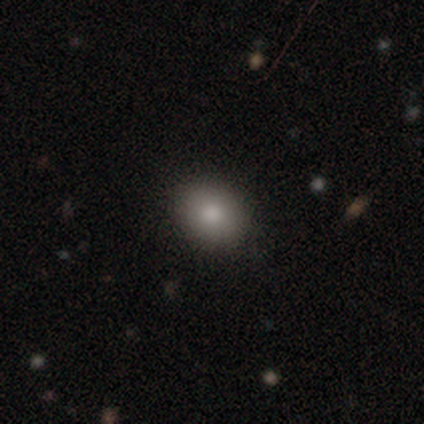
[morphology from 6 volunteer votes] smooth_or_featured: smooth (p=0.83) [alt: featured or disk p=0.17]
how_rounded: in between (p=0.60) [alt: round p=0.40]
merging: none (p=0.83) [alt: minor disturbance p=0.17]